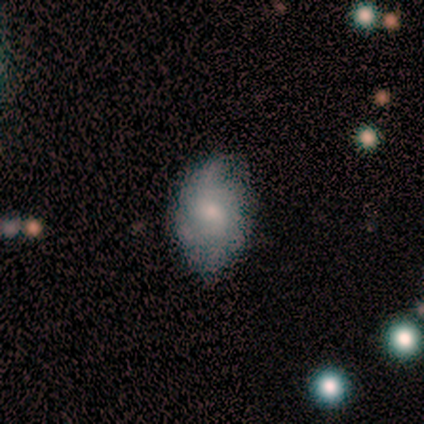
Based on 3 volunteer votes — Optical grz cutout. It shows a featured or disk galaxy (67%) with a weak bar (50%, tied with no), 1 (50%, tied with can't tell) loose (100%) spiral arms (100%) and a moderate central bulge (50%, tied with small). Merging: none (67%).